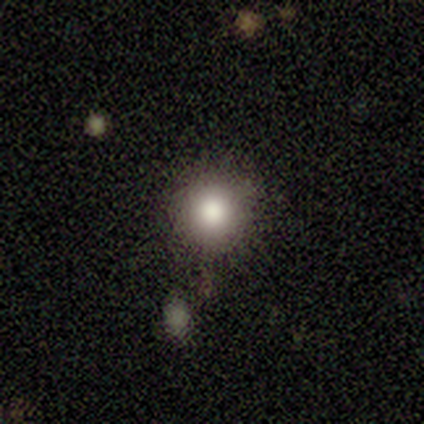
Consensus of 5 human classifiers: Morphology: type=smooth (40%, tied with star or artifact); roundness=round (100%); merging=none (67%).